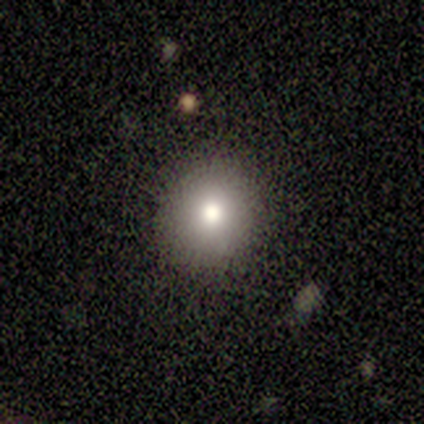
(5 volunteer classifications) smooth-or-featured: smooth: 80% | star or artifact: 20% | featured or disk: 0%
  how-rounded: round: 100% | in between: 0% | cigar-shaped: 0%
  merging: none: 100% | minor disturbance: 0% | major disturbance: 0% | merger: 0%